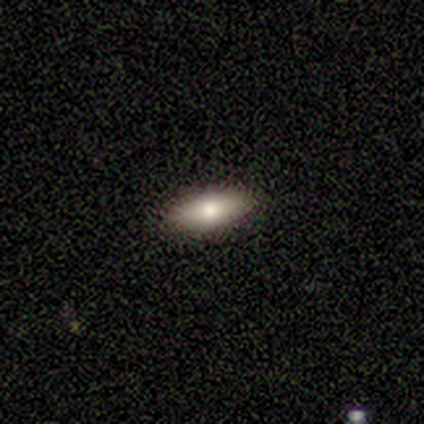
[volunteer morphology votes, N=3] type=smooth (100%); roundness=in between (67%); merging=none (100%).